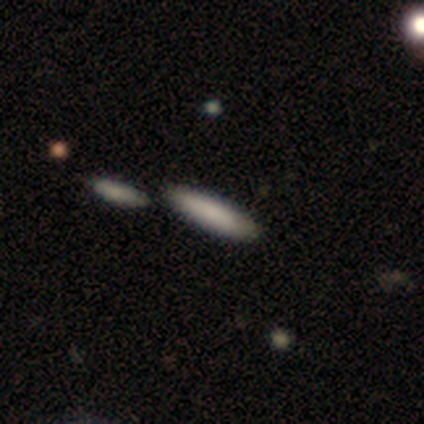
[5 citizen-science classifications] smooth 100%, featured or disk 0%, star or artifact 0%. Down the decision tree: how rounded — cigar-shaped (100%); merging — none (80%).